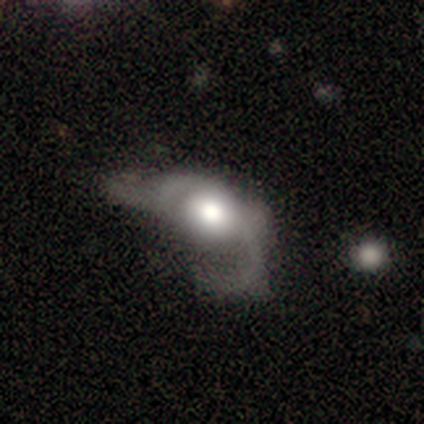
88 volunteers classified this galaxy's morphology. smooth-or-featured: featured or disk: 59% | smooth: 33% | star or artifact: 8%
  disk-edge-on: no: 92% | yes: 8%
    bar: no: 79% | weak: 17% | strong: 4%
    has-spiral-arms: yes: 62% | no: 38%
      spiral-winding: loose: 53% | medium: 37% | tight: 10%
      spiral-arm-count: 2: 57% | 1: 23% | can't tell: 17% | 3: 3% | 4: 0% | more than 4: 0%
    bulge-size: large: 35% (tied) | moderate: 35% (tied) | dominant: 19% | small: 10% | none: 0%
  merging: major disturbance: 67% | merger: 15% | minor disturbance: 11% | none: 7%